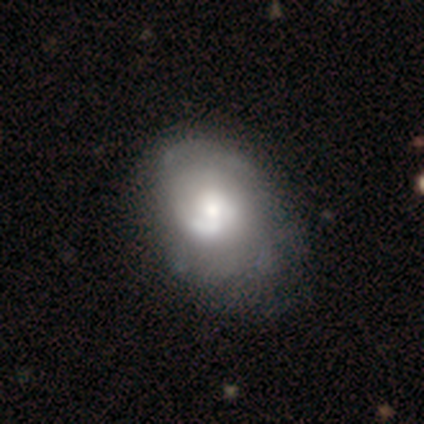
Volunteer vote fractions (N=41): Overall: featured or disk (63%; smooth 32%). Edge-on disk: no (100%). Bar: no (69%). Spiral arms: yes (81%). Spiral arm count: 2 (43%, tied with can't tell). Spiral winding: tight (43%; medium 33%). Bulge size: moderate (54%; large 27%). Merging: none (38%; minor disturbance 18%).